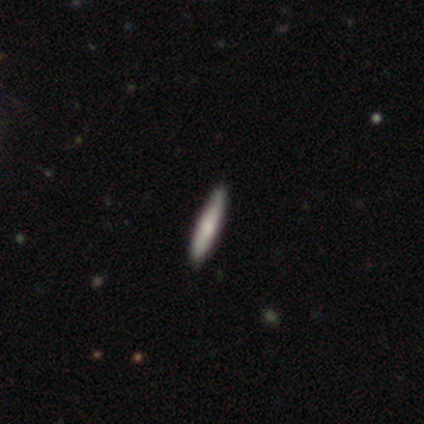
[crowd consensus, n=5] smooth_or_featured: smooth (p=1.00)
how_rounded: cigar-shaped (p=0.80) [alt: in between p=0.20]
merging: none (p=1.00)